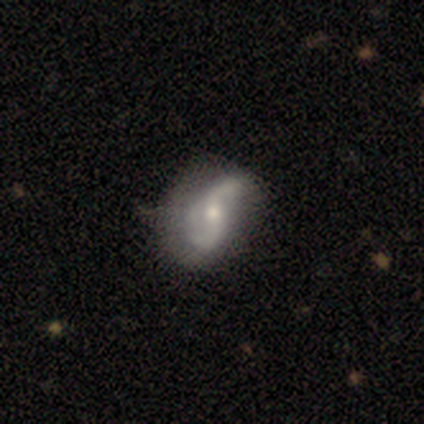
A featured or disk galaxy (100%) with a strong bar (60%), 2 (80%) tight (40%, tied with loose) spiral arms (100%) and a moderate central bulge (100%). Merging: none (40%, tied with minor disturbance).